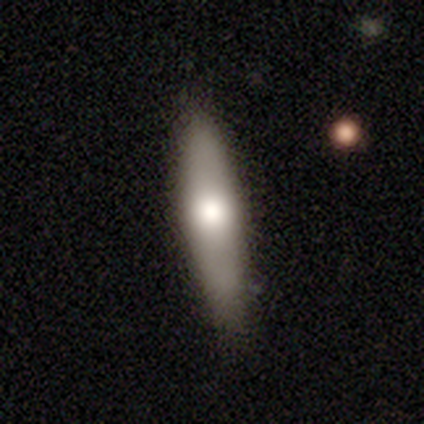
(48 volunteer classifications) Smooth or featured?
  - smooth: 56% *
  - featured or disk: 35%
  - star or artifact: 8%
How rounded?
  - cigar-shaped: 81% *
  - in between: 19%
  - round: 0%
Merging?
  - none: 82% *
  - minor disturbance: 16%
  - merger: 2%
  - major disturbance: 0%